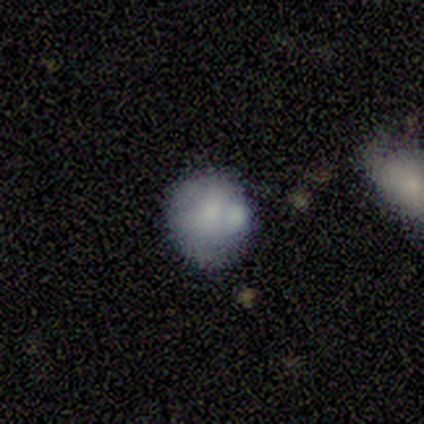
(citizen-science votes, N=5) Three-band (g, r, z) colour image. It shows a smooth galaxy with no disk features (80%) that is round (100%). Merging: none (60%).